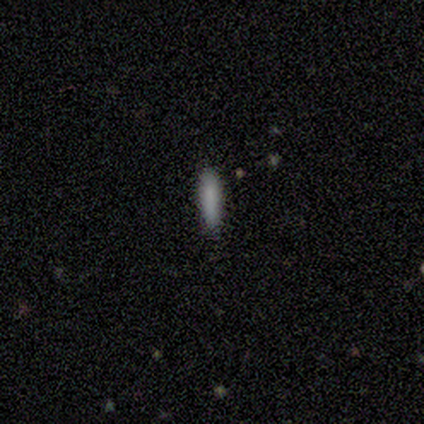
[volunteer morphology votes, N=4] Smooth or featured?
  - smooth: 100% *
  - featured or disk: 0%
  - star or artifact: 0%
How rounded?
  - cigar-shaped: 100% *
  - round: 0%
  - in between: 0%
Merging?
  - none: 50% *
  - minor disturbance: 25%
  - major disturbance: 25%
  - merger: 0%